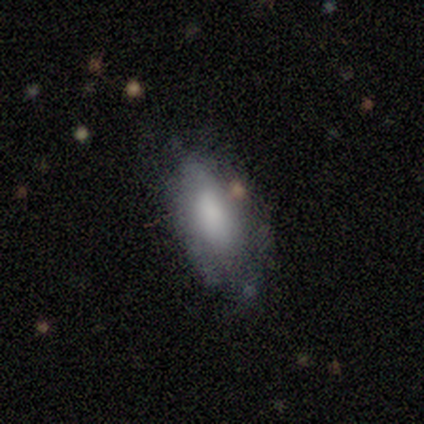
smooth_or_featured: smooth (p=1.00)
how_rounded: in between (p=1.00)
merging: none (p=1.00)